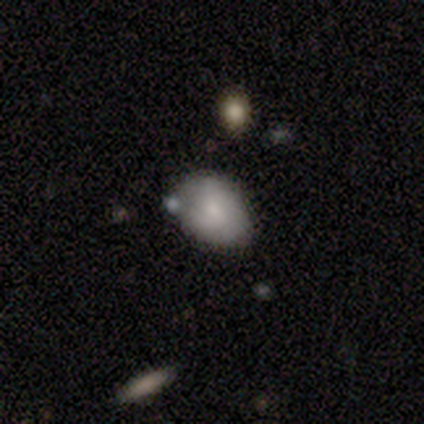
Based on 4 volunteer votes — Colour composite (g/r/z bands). It shows a smooth galaxy with no disk features (50%) that is in between round and cigar-shaped (100%). Merging: minor disturbance (67%).